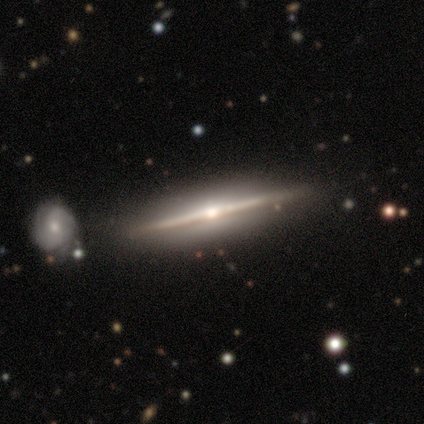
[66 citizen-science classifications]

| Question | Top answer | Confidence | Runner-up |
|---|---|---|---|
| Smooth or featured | featured or disk | 89% | star or artifact (6%) |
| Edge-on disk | yes | 100% | — |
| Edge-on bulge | rounded | 81% | none (14%) |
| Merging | none | 58% | merger (10%) |